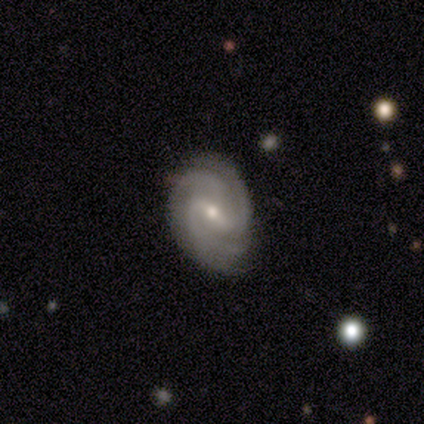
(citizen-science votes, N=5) This appears to be a featured or disk galaxy (100%) with a weak bar (60%), 3 (40%) tight (40%, tied with medium) spiral arms (100%) and a moderate central bulge (60%). Merging: none (80%).